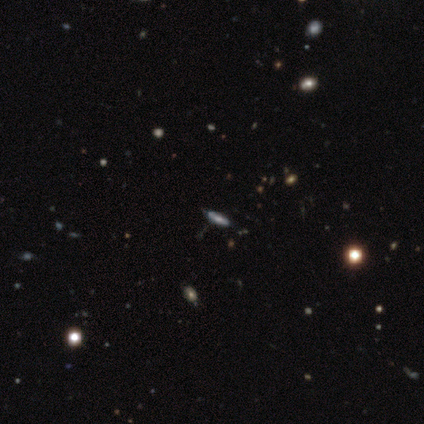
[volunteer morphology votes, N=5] Smooth or featured? smooth (40%, tied with featured or disk)
How rounded? in between (50%, tied with cigar-shaped)
Merging? none (50%, tied with minor disturbance)